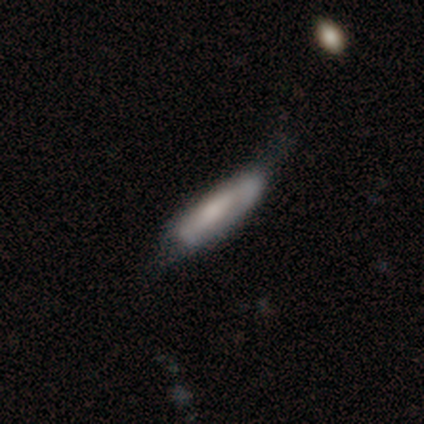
This is possibly a featured or disk galaxy (50%). It is likely not viewed edge-on (65%). Bar: possibly no (54%). Spiral arm pattern: likely no (62%). Central bulge: marginally large (31%, tied with none). Merging: marginally none (41%).